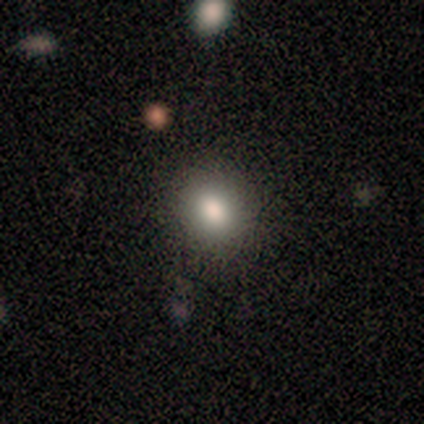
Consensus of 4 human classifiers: Morphology: type=smooth (75%); roundness=round (100%); merging=none (100%).